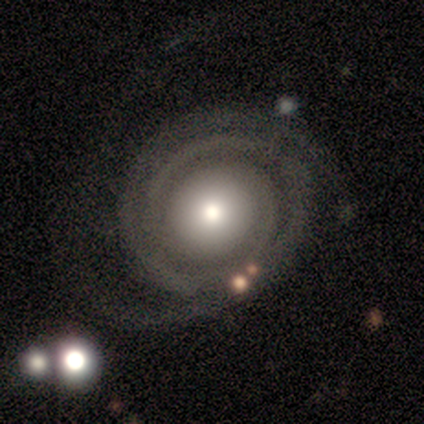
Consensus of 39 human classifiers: Overall: featured or disk (85%). Edge-on disk: no (94%). Bar: no (84%). Spiral arms: yes (90%). Spiral arm count: 2 (64%; 3 25%). Spiral winding: tight (86%). Bulge size: moderate (48%; large 26%). Merging: none (66%).